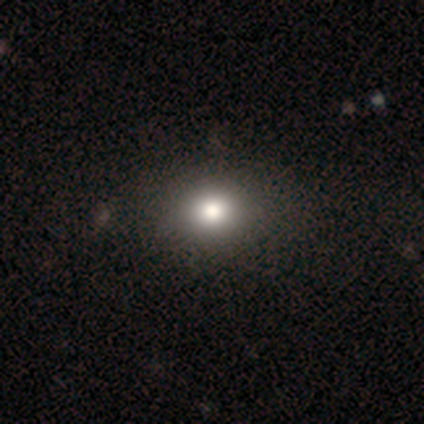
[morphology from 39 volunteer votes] Q: Smooth or featured?
A: smooth (79%); runner-up: star or artifact (15%)
Q: How rounded?
A: round (58%); runner-up: in between (42%)
Q: Merging?
A: none (58%); runner-up: minor disturbance (6%)